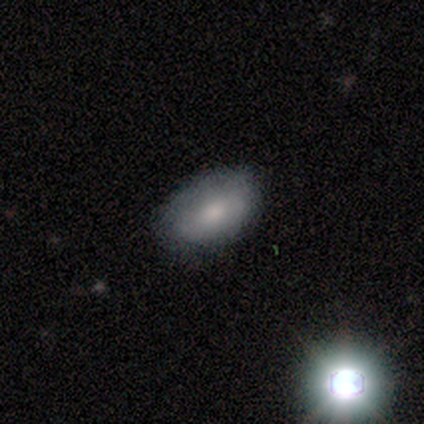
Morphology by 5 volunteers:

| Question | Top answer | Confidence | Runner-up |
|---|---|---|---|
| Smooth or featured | smooth | 80% | star or artifact (20%) |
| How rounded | in between | 100% | — |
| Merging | none | 75% | minor disturbance (25%) |